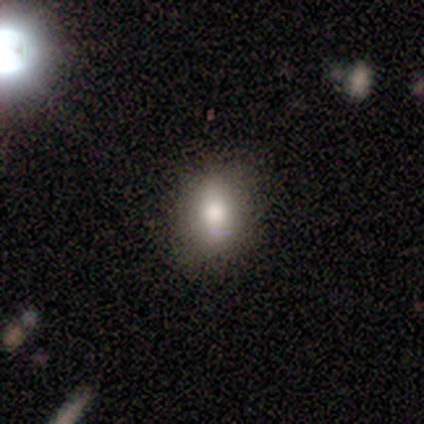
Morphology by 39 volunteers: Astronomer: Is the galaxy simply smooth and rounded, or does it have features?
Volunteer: smooth — 74%.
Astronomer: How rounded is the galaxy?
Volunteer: in between — 72%.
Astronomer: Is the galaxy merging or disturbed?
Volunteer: none — 89%.